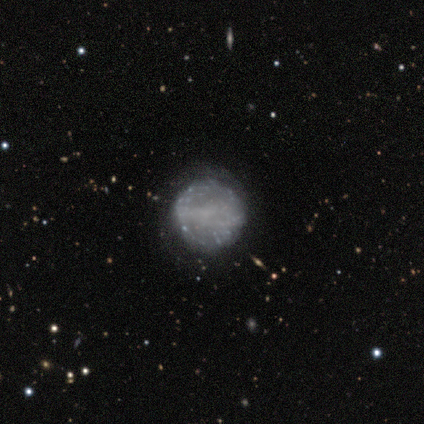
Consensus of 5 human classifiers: smooth_or_featured: featured or disk (p=0.80) [alt: smooth p=0.20]
disk_edge_on: no (p=1.00)
bar: no (p=0.50) [alt: strong p=0.25]
has_spiral_arms: no (p=0.75) [alt: yes p=0.25]
bulge_size: none (p=0.75) [alt: small p=0.25]
merging: none (p=1.00)